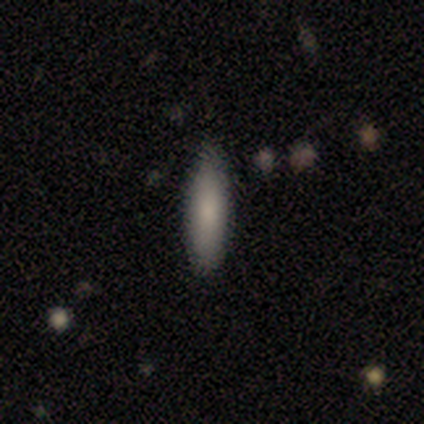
Morphology: type=smooth (80%); roundness=in between (100%); merging=none (100%).